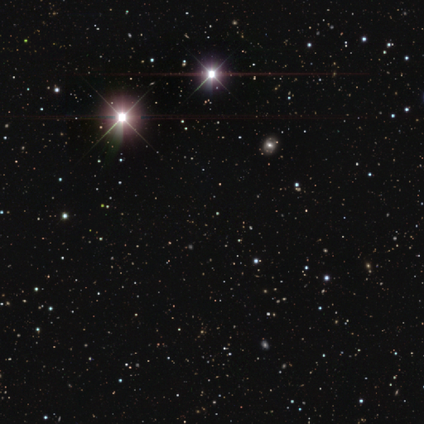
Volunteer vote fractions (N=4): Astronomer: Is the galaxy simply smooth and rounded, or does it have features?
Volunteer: star or artifact — 100%.